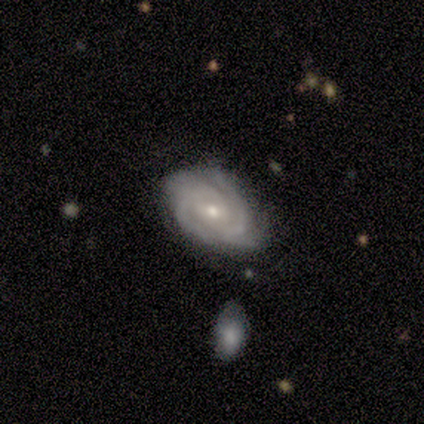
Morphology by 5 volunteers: This is clearly a featured or disk galaxy (100%). It is clearly not viewed edge-on (100%). Bar: likely no (60%). Spiral arm pattern: clearly yes (100%). Spiral arm count: marginally 4 (40%). Spiral winding: clearly tight (100%). Central bulge: clearly small (80%). Merging: likely none (60%).